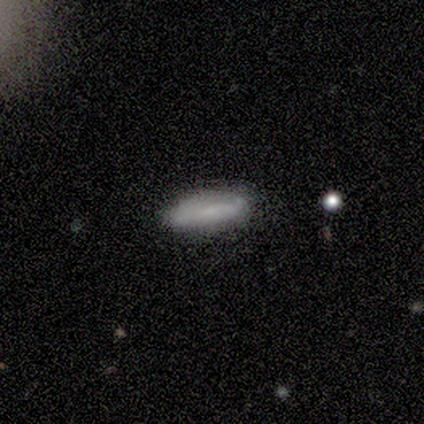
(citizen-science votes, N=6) Morphology: type=smooth (100%); roundness=in between (50%, tied with cigar-shaped); merging=none (83%).